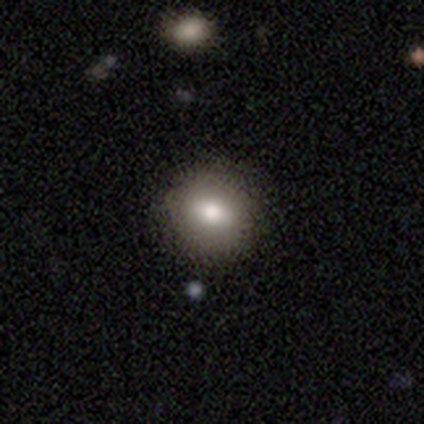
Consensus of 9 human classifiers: Smooth or featured: smooth — 100%
How rounded: round — 89% (in between — 11%)
Merging: none — 100%